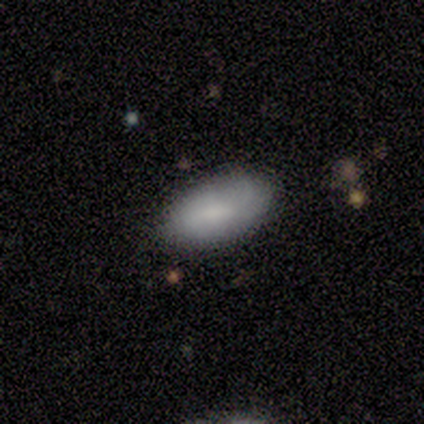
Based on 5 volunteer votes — A smooth galaxy with no disk features (100%) that is in between round and cigar-shaped (100%). Merging: minor disturbance (60%).